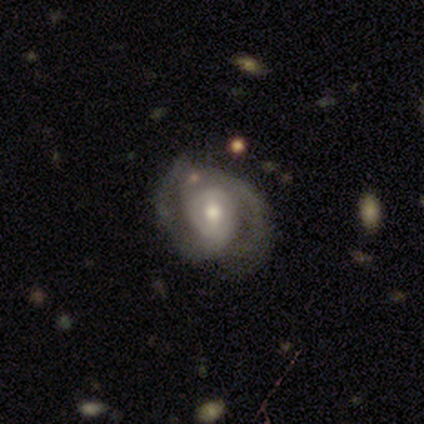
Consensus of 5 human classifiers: smooth_or_featured: featured or disk (p=1.00)
disk_edge_on: no (p=1.00)
bar: weak (p=0.40) [tied with: no p=0.40]
has_spiral_arms: yes (p=0.80) [alt: no p=0.20]
spiral_winding: medium (p=0.50) [alt: tight p=0.25]
spiral_arm_count: 2 (p=1.00)
bulge_size: moderate (p=0.60) [alt: large p=0.20]
merging: none (p=0.60) [alt: major disturbance p=0.20]